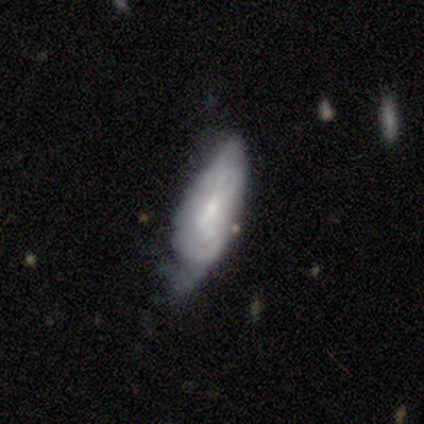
Smooth or featured? featured or disk (60%)
Edge-on disk? no (100%)
Bar? weak (67%)
Spiral arms? yes (67%)
Spiral winding? tight (50%, tied with medium)
Spiral arm count? 2 (50%, tied with can't tell)
Bulge size? moderate (67%)
Merging? none (60%)